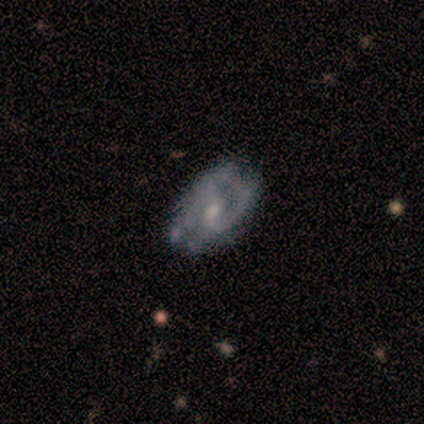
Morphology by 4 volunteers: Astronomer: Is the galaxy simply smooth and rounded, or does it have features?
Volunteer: featured or disk — 75%.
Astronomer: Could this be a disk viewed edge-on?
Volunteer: no — 100%.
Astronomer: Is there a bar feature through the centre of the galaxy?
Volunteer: no — 67%.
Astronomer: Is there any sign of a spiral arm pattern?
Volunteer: yes — 67%.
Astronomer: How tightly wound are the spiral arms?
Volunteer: tight — 100%.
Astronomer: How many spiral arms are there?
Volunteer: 2 — 50%, tied with can't tell at 50%.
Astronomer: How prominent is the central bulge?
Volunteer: small — 100%.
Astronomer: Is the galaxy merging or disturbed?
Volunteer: minor disturbance — 50%.